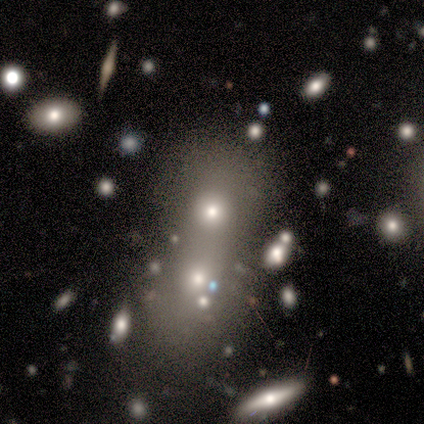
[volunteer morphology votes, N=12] Smooth or featured? smooth (42%)
How rounded? in between (80%)
Merging? merger (56%)